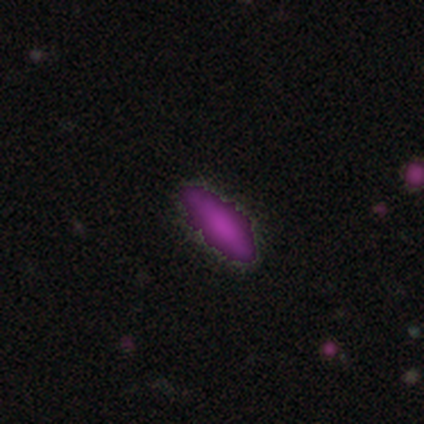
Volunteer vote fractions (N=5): smooth_or_featured: smooth (p=0.40) [tied with: star or artifact p=0.40]
how_rounded: in between (p=0.50) [tied with: cigar-shaped p=0.50]
merging: none (p=0.67) [alt: minor disturbance p=0.33]